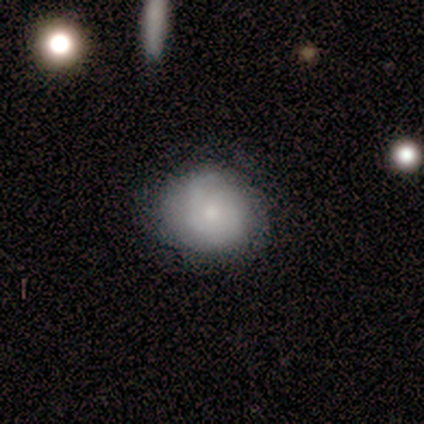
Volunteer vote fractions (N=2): Smooth or featured? 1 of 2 (50%, tied with star or artifact) said smooth. How rounded? 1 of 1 (100%) said round. Merging? 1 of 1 (100%) said none.